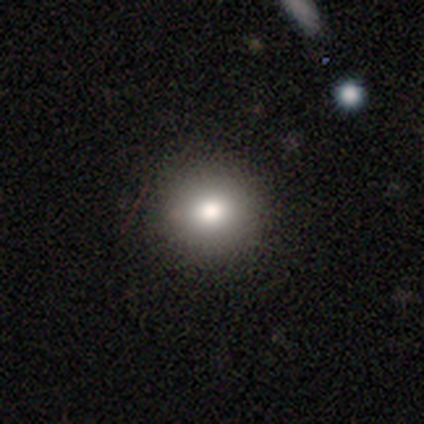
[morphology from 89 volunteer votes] Overall: smooth (91%). How rounded: round (91%). Merging: none (92%).